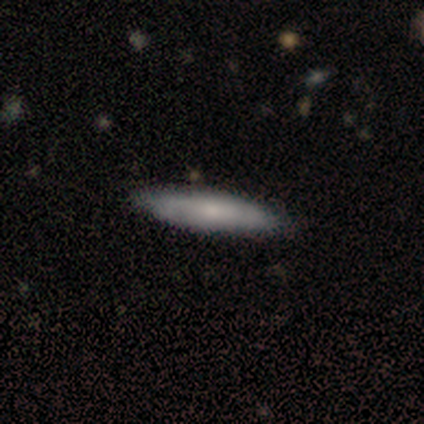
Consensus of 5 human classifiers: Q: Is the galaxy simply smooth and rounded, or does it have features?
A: featured or disk — 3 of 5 (60%).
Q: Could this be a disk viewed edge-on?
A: yes — 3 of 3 (100%).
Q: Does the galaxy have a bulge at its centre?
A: rounded — 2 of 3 (67%).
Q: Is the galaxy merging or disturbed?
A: none — 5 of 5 (100%).